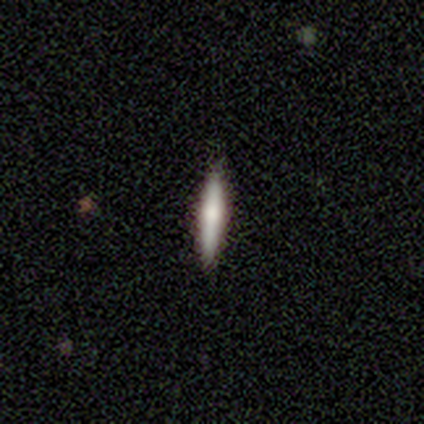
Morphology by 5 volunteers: smooth_or_featured: smooth (p=0.60) [alt: featured or disk p=0.40]
how_rounded: cigar-shaped (p=1.00)
merging: none (p=0.60) [alt: minor disturbance p=0.20]